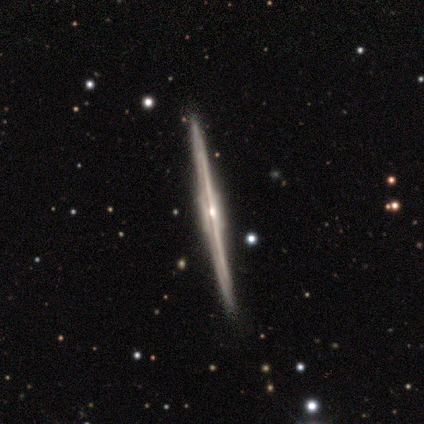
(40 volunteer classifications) smooth_or_featured: featured or disk (p=0.93) [alt: smooth p=0.07]
disk_edge_on: yes (p=1.00)
edge_on_bulge: boxy (p=0.49) [alt: rounded p=0.46]
merging: none (p=0.88) [alt: minor disturbance p=0.12]